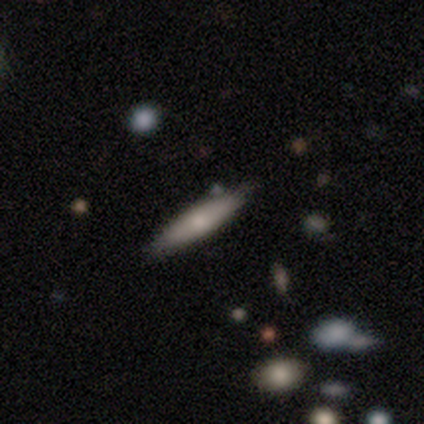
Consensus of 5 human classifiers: Overall: smooth (60%; featured or disk 40%). How rounded: cigar-shaped (100%). Merging: none (100%).